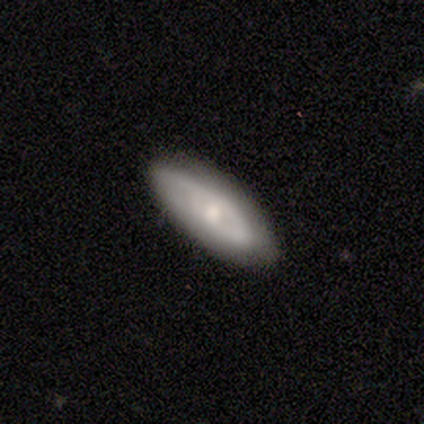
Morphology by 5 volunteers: Smooth or featured: smooth — 40% (tied with featured or disk — 40%)
How rounded: in between — 50% (tied with cigar-shaped — 50%)
Merging: none — 50% (tied with minor disturbance — 50%)